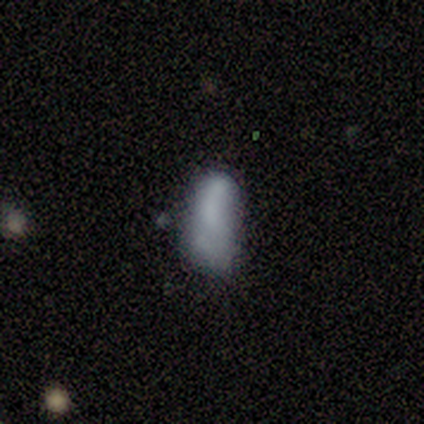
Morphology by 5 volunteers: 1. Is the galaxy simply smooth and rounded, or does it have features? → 100% smooth, 0% featured or disk, 0% star or artifact.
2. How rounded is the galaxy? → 100% in between, 0% round, 0% cigar-shaped.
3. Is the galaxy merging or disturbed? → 80% major disturbance, 20% minor disturbance, 0% none, 0% merger.